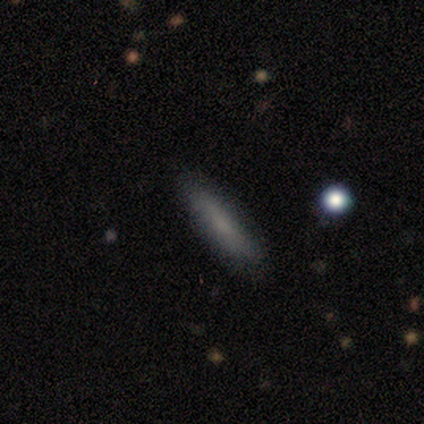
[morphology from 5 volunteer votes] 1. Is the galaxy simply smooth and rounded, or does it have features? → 60% smooth, 40% featured or disk, 0% star or artifact.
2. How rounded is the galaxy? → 67% cigar-shaped, 33% in between, 0% round.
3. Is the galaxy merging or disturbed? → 80% none, 20% minor disturbance, 0% major disturbance, 0% merger.